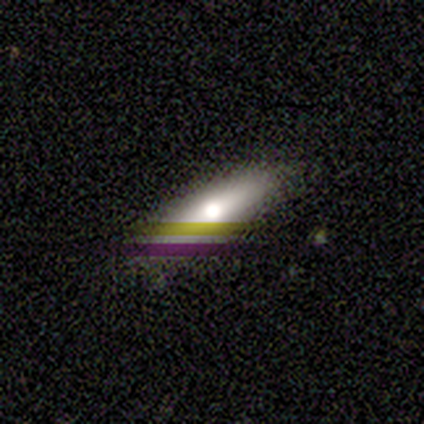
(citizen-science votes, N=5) Smooth or featured? featured or disk (40%, tied with star or artifact)
Edge-on disk? yes (100%)
Edge-on bulge? rounded (100%)
Merging? none (100%)